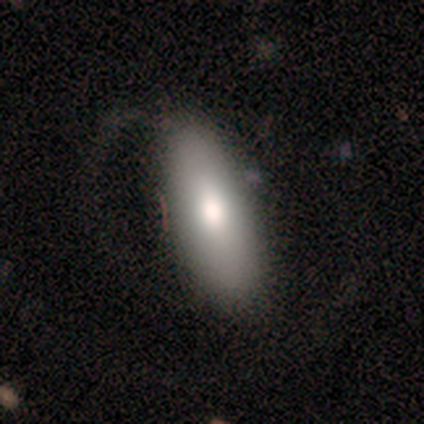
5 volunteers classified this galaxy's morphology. Smooth or featured? 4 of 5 (80%) said smooth. How rounded? 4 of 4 (100%) said in between. Merging? 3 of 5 (60%) said major disturbance.